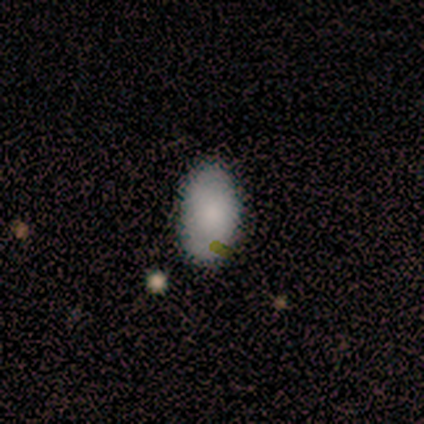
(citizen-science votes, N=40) smooth 75%, featured or disk 18%, star or artifact 8%. Down the decision tree: how rounded — in between (100%); merging — none (81%).